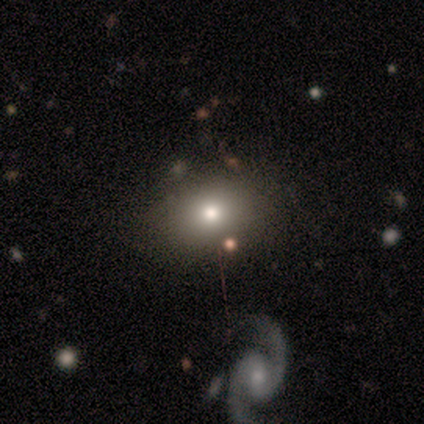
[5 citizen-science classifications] Smooth or featured?
  - smooth: 80% *
  - featured or disk: 20%
  - star or artifact: 0%
How rounded?
  - in between: 100% *
  - round: 0%
  - cigar-shaped: 0%
Merging?
  - none: 100% *
  - minor disturbance: 0%
  - major disturbance: 0%
  - merger: 0%